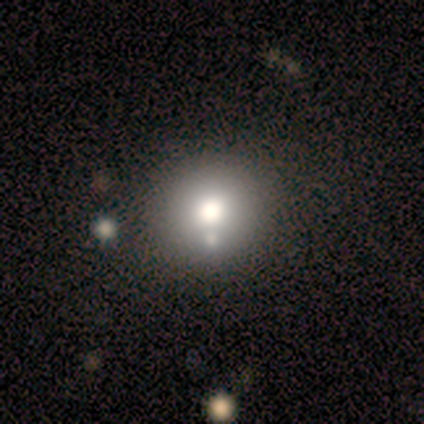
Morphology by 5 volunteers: smooth-or-featured: smooth: 80% | featured or disk: 20% | star or artifact: 0%
  how-rounded: round: 100% | in between: 0% | cigar-shaped: 0%
  merging: none: 60% | minor disturbance: 40% | major disturbance: 0% | merger: 0%